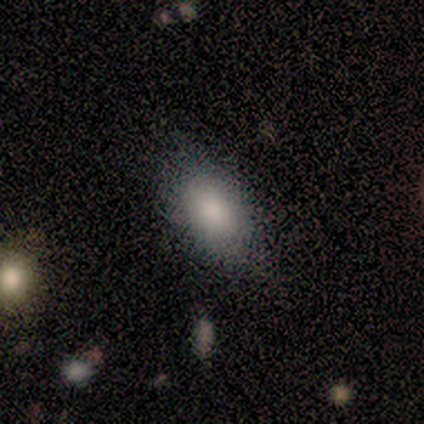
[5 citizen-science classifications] This is clearly a smooth galaxy (80%). How rounded: clearly in between (100%). Merging: possibly none (50%).